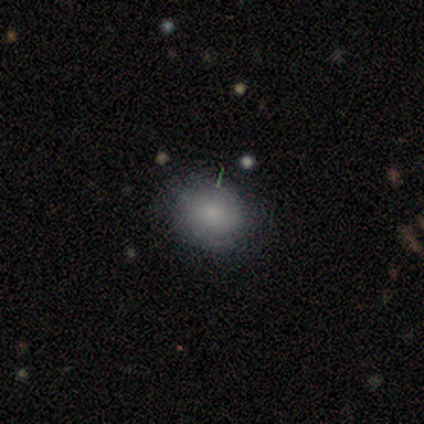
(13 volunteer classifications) Q: Smooth or featured?
A: smooth (100%)
Q: How rounded?
A: round (54%); runner-up: in between (46%)
Q: Merging?
A: none (100%)